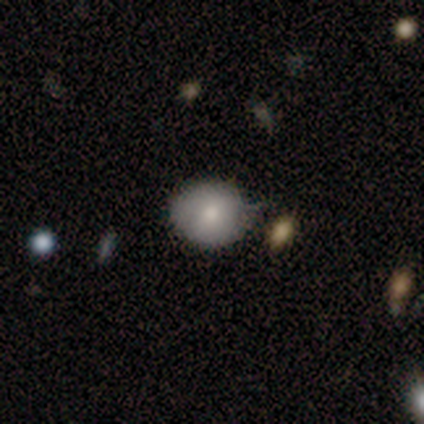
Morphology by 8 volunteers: Smooth or featured?
  - smooth: 50% *
  - featured or disk: 38%
  - star or artifact: 12%
How rounded?
  - round: 50% *
  - in between: 25%
  - cigar-shaped: 25%
Merging?
  - minor disturbance: 57% *
  - none: 29%
  - major disturbance: 14%
  - merger: 0%